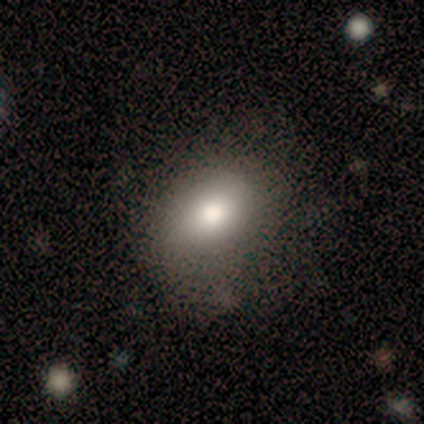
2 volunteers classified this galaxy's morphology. This appears to be a smooth galaxy with no disk features (50%, tied with featured or disk) that is in between round and cigar-shaped (100%). Merging: none (100%).